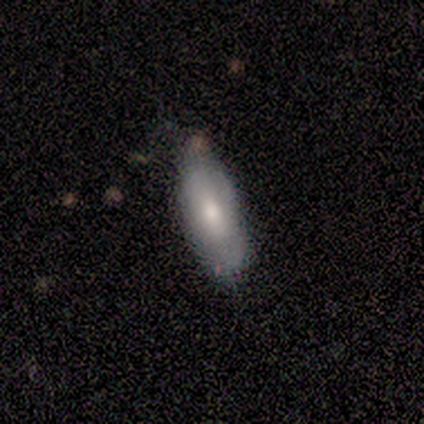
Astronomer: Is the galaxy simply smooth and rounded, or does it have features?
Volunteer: smooth — 60%.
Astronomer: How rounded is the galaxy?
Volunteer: in between — 100%.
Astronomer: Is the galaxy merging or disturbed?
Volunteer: none — 50%.